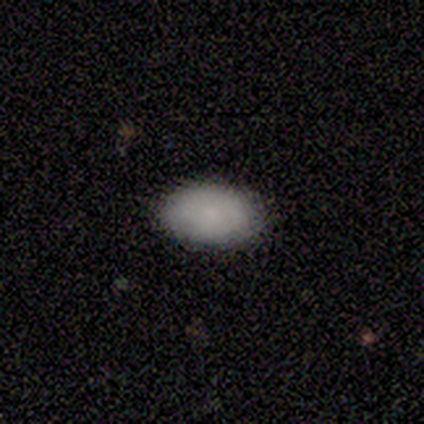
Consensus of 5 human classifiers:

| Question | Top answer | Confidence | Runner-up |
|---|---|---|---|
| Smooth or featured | smooth | 80% | featured or disk (20%) |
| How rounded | in between | 100% | — |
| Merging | none | 100% | — |